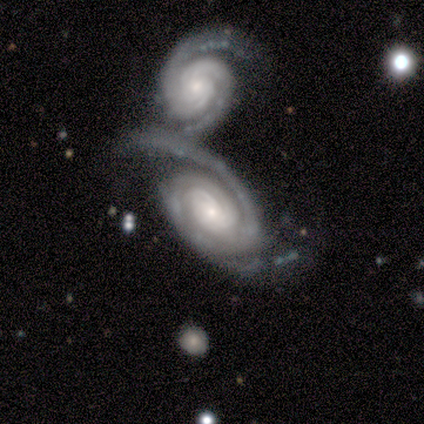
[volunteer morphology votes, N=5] Smooth or featured? 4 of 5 (80%) said featured or disk. Edge-on disk? 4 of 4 (100%) said no. Bar? 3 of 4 (75%) said no. Spiral arms? 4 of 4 (100%) said yes. Spiral winding? 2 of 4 (50%) said tight. Spiral arm count? 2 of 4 (50%) said 2. Bulge size? 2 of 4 (50%) said large. Merging? 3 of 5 (60%) said none.